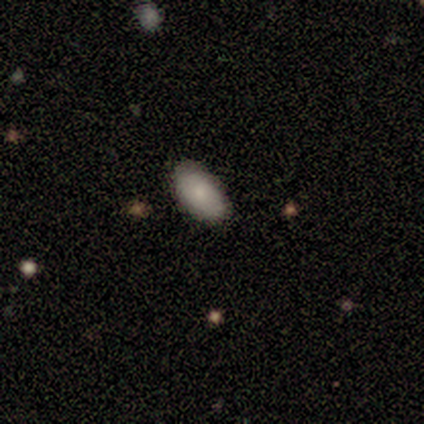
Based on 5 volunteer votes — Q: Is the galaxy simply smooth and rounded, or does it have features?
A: smooth — 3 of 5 (60%).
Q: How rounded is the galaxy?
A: in between — 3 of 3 (100%).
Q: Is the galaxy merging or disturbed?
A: none — 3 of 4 (75%).